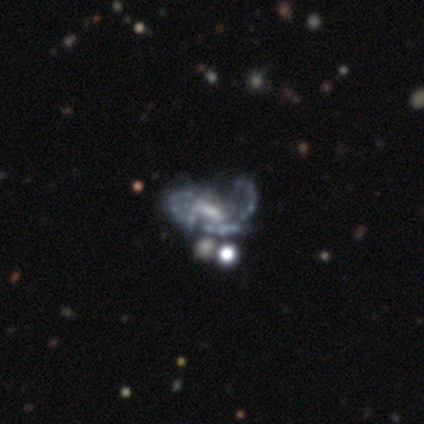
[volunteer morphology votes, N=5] smooth-or-featured: featured or disk: 80% | star or artifact: 20% | smooth: 0%
  disk-edge-on: no: 100% | yes: 0%
    bar: no: 50% | strong: 25% | weak: 25%
    has-spiral-arms: yes: 50% (tied) | no: 50% (tied)
      spiral-winding: medium: 50% (tied) | loose: 50% (tied) | tight: 0%
      spiral-arm-count: 1: 50% (tied) | 3: 50% (tied) | 2: 0% | 4: 0% | more than 4: 0% | can't tell: 0%
    bulge-size: moderate: 50% | small: 25% | none: 25% | dominant: 0% | large: 0%
  merging: none: 75% | major disturbance: 25% | minor disturbance: 0% | merger: 0%